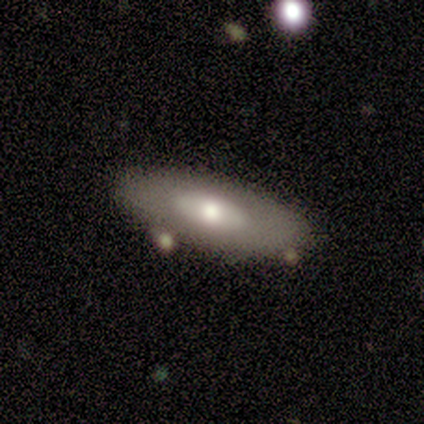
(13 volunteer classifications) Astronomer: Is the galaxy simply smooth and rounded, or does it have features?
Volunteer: smooth — 62% (runner-up: featured or disk, 38%).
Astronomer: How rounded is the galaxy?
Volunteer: in between — 62%.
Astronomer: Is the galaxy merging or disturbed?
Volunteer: none — 69%.